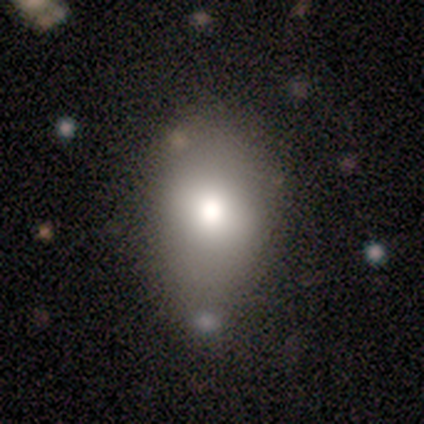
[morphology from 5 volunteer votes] Smooth or featured? 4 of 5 (80%) said smooth. How rounded? 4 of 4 (100%) said in between. Merging? 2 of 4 (50%, tied with minor disturbance) said none.